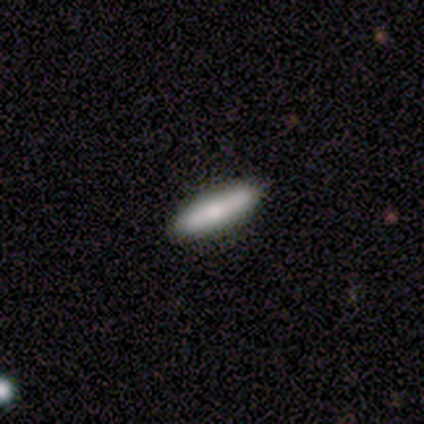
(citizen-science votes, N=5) A smooth galaxy with no disk features (80%) that is cigar-shaped (100%).

Vote fractions:
- Smooth or featured? smooth: 80% / featured or disk: 20% / star or artifact: 0%
- How rounded? cigar-shaped: 100% / round: 0% / in between: 0%
- Merging? none: 60% / minor disturbance: 40% / major disturbance: 0% / merger: 0%